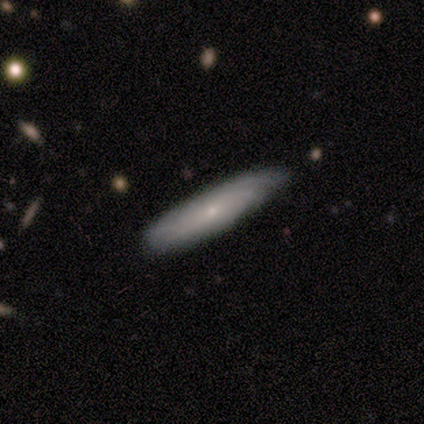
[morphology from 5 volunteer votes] This is clearly a smooth galaxy (80%). How rounded: clearly cigar-shaped (100%). Merging: likely none (60%).